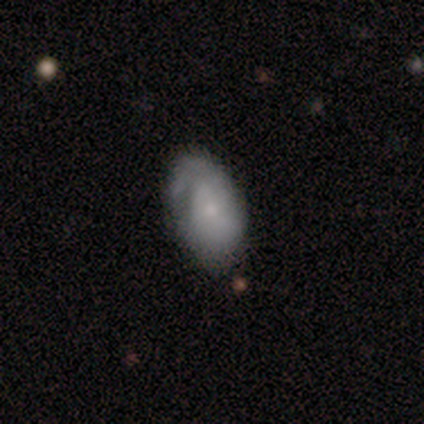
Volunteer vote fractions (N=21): smooth 52%, featured or disk 48%, star or artifact 0%. Down the decision tree: how rounded — in between (91%); merging — minor disturbance (52%).